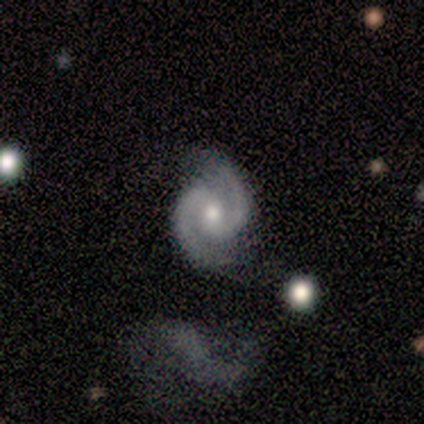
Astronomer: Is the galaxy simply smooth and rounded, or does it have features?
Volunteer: featured or disk — 100%.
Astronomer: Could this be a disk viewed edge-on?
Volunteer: no — 100%.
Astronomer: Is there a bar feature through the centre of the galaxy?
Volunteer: no — 73%.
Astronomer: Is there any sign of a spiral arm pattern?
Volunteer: yes — 100%.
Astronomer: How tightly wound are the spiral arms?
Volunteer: medium — 53% (runner-up: tight, 33%).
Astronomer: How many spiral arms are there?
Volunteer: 2 — 100%.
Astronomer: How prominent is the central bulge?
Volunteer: moderate — 60% (runner-up: small, 40%).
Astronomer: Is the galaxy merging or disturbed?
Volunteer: none — 87%.